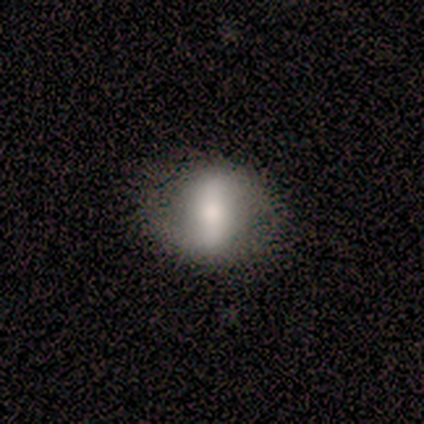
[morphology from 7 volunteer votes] Smooth or featured? 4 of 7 (57%) said featured or disk. Edge-on disk? 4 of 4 (100%) said no. Bar? 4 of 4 (100%) said strong. Spiral arms? 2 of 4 (50%, tied with no) said yes. Spiral winding? 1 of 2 (50%, tied with loose) said medium. Spiral arm count? 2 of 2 (100%) said 2. Bulge size? 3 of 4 (75%) said moderate. Merging? 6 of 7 (86%) said none.